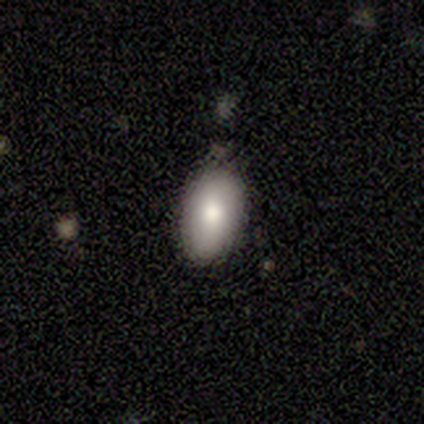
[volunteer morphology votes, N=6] Smooth or featured?
  - smooth: 83% *
  - featured or disk: 17%
  - star or artifact: 0%
How rounded?
  - in between: 100% *
  - round: 0%
  - cigar-shaped: 0%
Merging?
  - none: 67% *
  - minor disturbance: 33%
  - major disturbance: 0%
  - merger: 0%